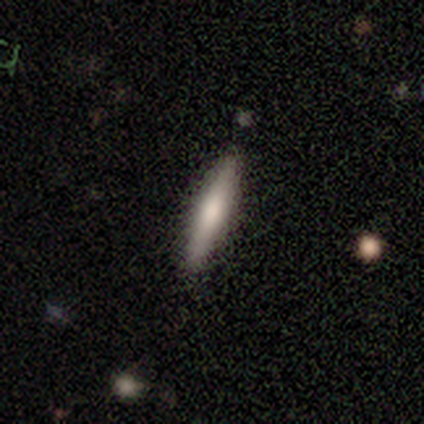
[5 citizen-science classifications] Smooth or featured: smooth — 60% (featured or disk — 40%)
How rounded: cigar-shaped — 67% (in between — 33%)
Merging: none — 100%